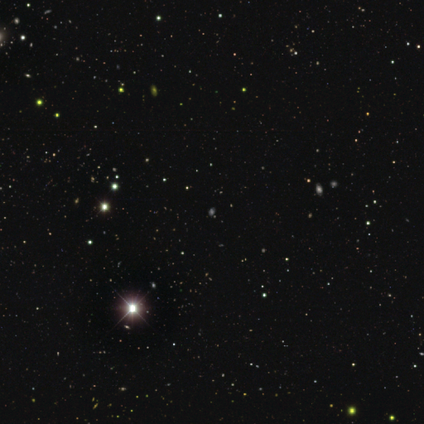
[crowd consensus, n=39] Smooth or featured? star or artifact (79%)